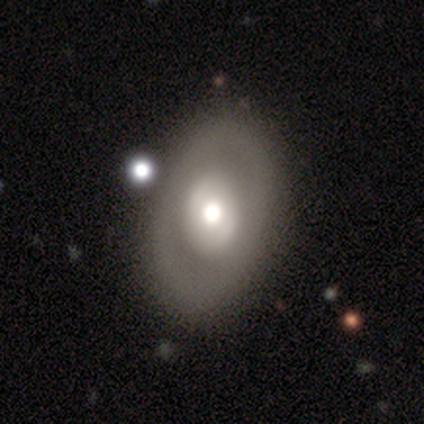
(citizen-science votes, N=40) Smooth or featured? featured or disk (60%)
Edge-on disk? no (96%)
Bar? no (96%)
Spiral arms? no (87%)
Bulge size? moderate (57%)
Merging? none (72%)